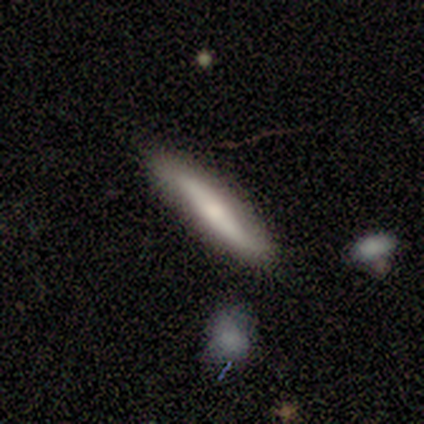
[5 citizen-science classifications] A featured or disk galaxy (60%) viewed edge-on (100%) with a rounded central bulge (67%). Merging: none (80%).